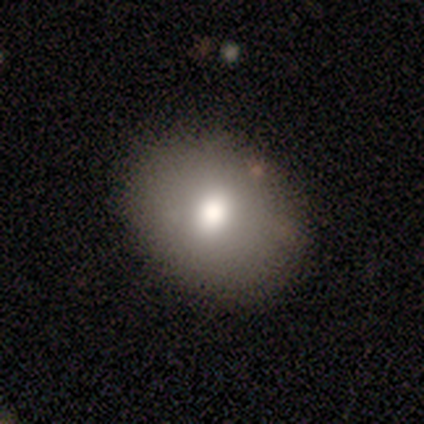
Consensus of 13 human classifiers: A smooth galaxy with no disk features (85%) that is in between round and cigar-shaped (91%). Merging: none (92%).